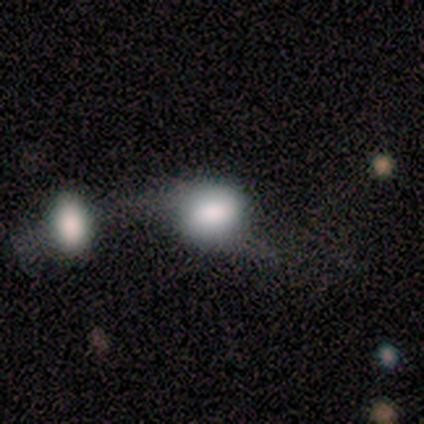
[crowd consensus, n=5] Smooth or featured? smooth (100%)
How rounded? in between (60%)
Merging? major disturbance (40%, tied with merger)